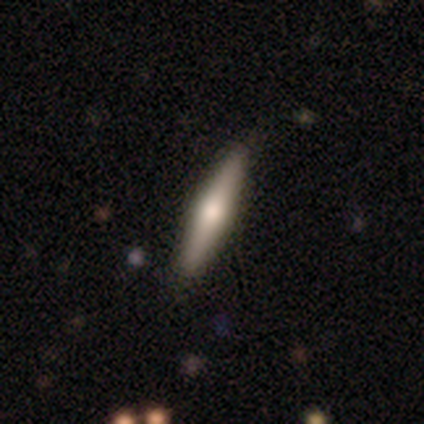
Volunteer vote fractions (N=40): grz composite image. It shows a featured or disk galaxy (52%) viewed edge-on (90%) with a rounded central bulge (89%). Merging: none (94%).